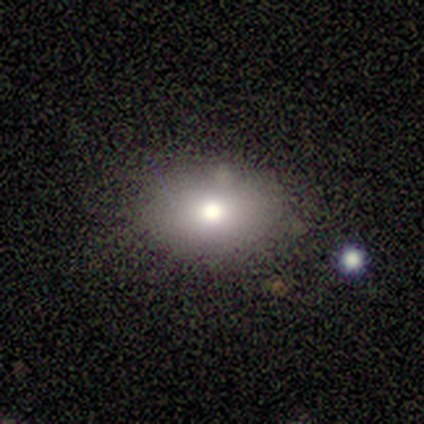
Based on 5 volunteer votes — Smooth or featured? 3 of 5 (60%) said smooth. How rounded? 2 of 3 (67%) said in between. Merging? 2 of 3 (67%) said none.